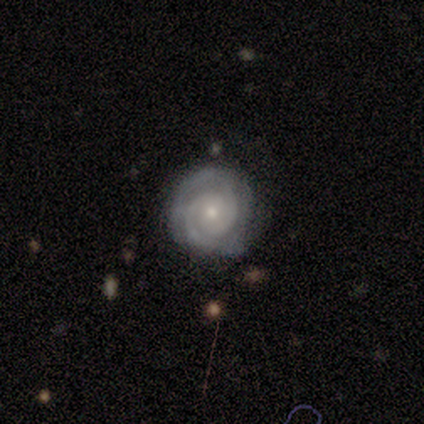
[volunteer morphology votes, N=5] This appears to be a featured or disk galaxy (100%) with no bar (100%), 2 (100%) tight (80%) spiral arms (100%) and a small central bulge (80%). Merging: none (80%).